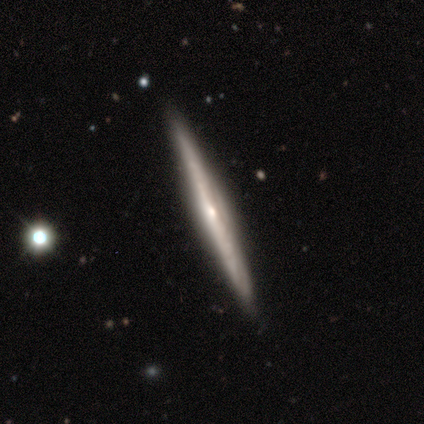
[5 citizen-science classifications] Smooth or featured?
  - featured or disk: 100% *
  - smooth: 0%
  - star or artifact: 0%
Edge-on disk?
  - yes: 80% *
  - no: 20%
Edge-on bulge?
  - rounded: 75% *
  - none: 25%
  - boxy: 0%
Merging?
  - none: 100% *
  - minor disturbance: 0%
  - major disturbance: 0%
  - merger: 0%